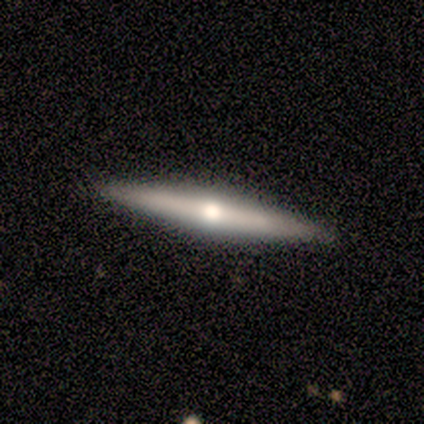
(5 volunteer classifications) A smooth galaxy with no disk features (40%, tied with featured or disk) that is cigar-shaped (100%). Merging: none (100%).